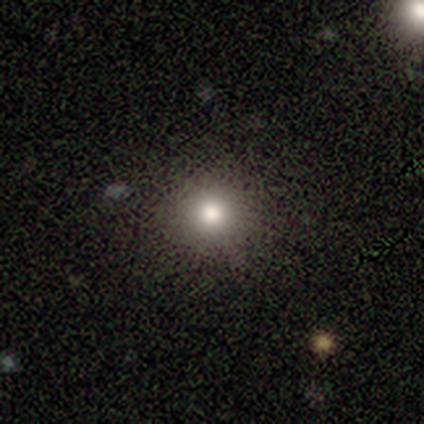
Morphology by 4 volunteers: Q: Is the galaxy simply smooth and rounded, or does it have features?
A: smooth — 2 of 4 (50%, tied with star or artifact).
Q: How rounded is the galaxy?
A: round — 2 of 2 (100%).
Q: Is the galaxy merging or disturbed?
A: none — 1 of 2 (50%, tied with minor disturbance).